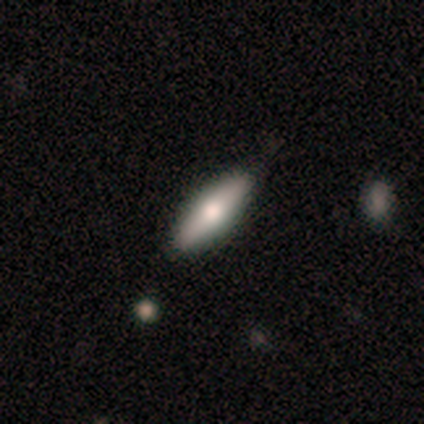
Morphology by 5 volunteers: Smooth or featured? 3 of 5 (60%) said smooth. How rounded? 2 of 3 (67%) said in between. Merging? 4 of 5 (80%) said none.